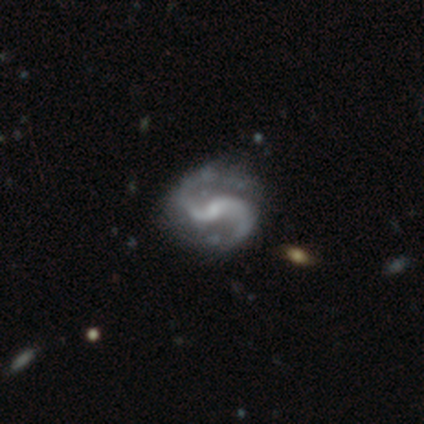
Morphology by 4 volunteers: Smooth or featured?
  - featured or disk: 100% *
  - smooth: 0%
  - star or artifact: 0%
Edge-on disk?
  - no: 100% *
  - yes: 0%
Bar?
  - weak: 100% *
  - strong: 0%
  - no: 0%
Spiral arms?
  - yes: 100% *
  - no: 0%
Spiral winding?
  - medium: 50% * (tied)
  - loose: 50% * (tied)
  - tight: 0%
Spiral arm count?
  - 2: 100% *
  - 1: 0%
  - 3: 0%
  - 4: 0%
  - more than 4: 0%
  - can't tell: 0%
Bulge size?
  - small: 50% *
  - moderate: 25%
  - none: 25%
  - dominant: 0%
  - large: 0%
Merging?
  - none: 50% * (tied)
  - minor disturbance: 50% * (tied)
  - major disturbance: 0%
  - merger: 0%